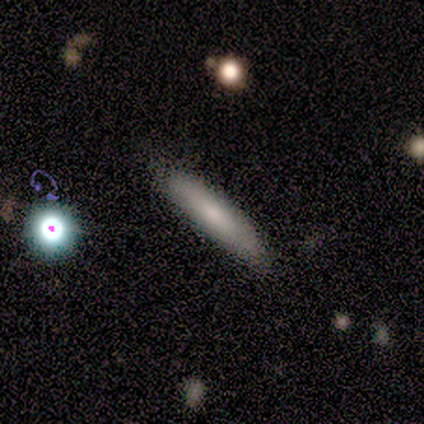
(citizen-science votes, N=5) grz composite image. It shows a star or artifact, not a galaxy (60%).